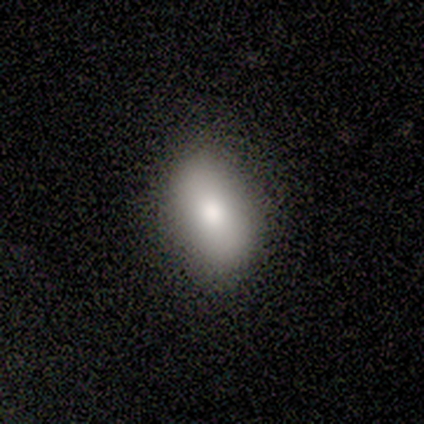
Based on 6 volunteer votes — Morphology: type=smooth (83%); roundness=in between (60%); merging=none (100%).